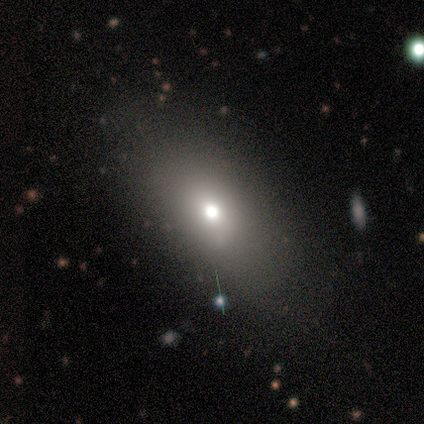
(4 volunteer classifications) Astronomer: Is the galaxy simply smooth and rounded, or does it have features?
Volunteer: smooth — 75%.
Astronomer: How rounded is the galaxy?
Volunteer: in between — 67%.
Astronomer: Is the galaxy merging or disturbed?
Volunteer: none — 100%.